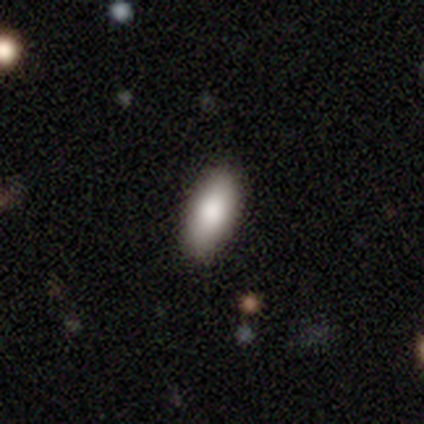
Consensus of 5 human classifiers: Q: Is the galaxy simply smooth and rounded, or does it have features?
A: smooth — 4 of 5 (80%).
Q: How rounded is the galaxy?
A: in between — 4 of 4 (100%).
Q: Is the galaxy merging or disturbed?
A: none — 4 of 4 (100%).